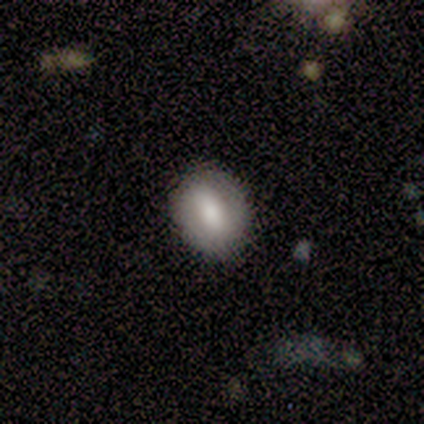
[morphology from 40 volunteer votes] A smooth galaxy with no disk features (65%) that is in between round and cigar-shaped (65%).

Vote fractions:
- Smooth or featured? smooth: 65% / featured or disk: 25% / star or artifact: 10%
- How rounded? in between: 65% / round: 35% / cigar-shaped: 0%
- Merging? none: 94% / minor disturbance: 6% / major disturbance: 0% / merger: 0%